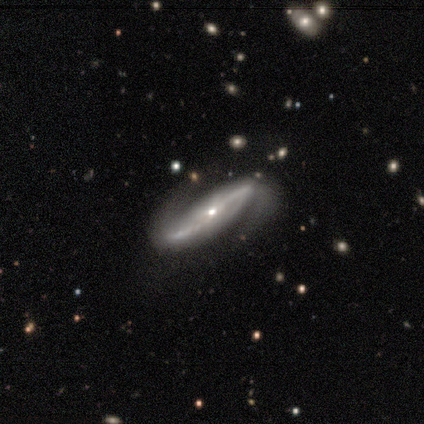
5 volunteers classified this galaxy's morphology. featured or disk 80%, smooth 20%, star or artifact 0%. Down the decision tree: edge-on disk — no (75%); bar — weak (67%); spiral arms — yes (100%); spiral arm count — 2 (67%); spiral winding — loose (67%); bulge size — small (100%); merging — none (40%).